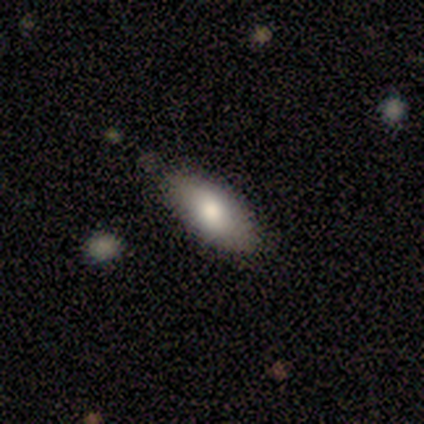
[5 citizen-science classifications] A smooth galaxy with no disk features (80%) that is in between round and cigar-shaped (75%). Merging: none (100%).